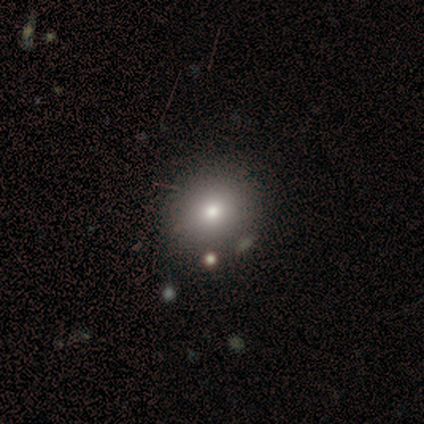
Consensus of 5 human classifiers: Overall: smooth (80%). How rounded: round (100%). Merging: none (60%; minor disturbance 40%).